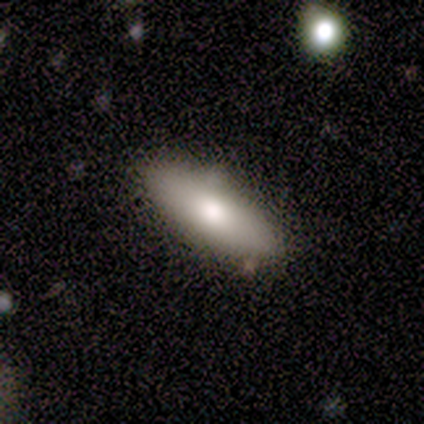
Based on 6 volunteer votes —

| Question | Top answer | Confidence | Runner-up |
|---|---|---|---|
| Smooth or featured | smooth | 83% | featured or disk (17%) |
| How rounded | in between | 80% | cigar-shaped (20%) |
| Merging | none | 100% | — |